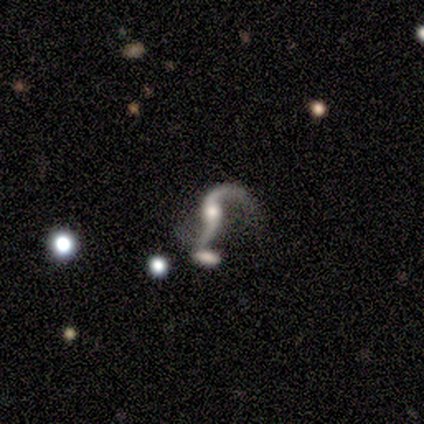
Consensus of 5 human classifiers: smooth_or_featured: featured or disk (p=0.80) [alt: star or artifact p=0.20]
disk_edge_on: no (p=1.00)
bar: no (p=0.50) [alt: strong p=0.25]
has_spiral_arms: yes (p=1.00)
spiral_winding: loose (p=0.75) [alt: medium p=0.25]
spiral_arm_count: 2 (p=1.00)
bulge_size: moderate (p=0.50) [tied with: small p=0.50]
merging: none (p=1.00)